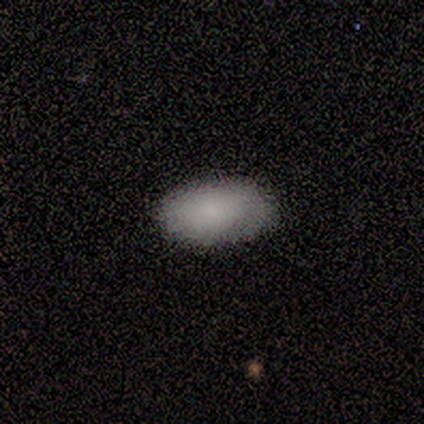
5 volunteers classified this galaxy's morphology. A smooth galaxy with no disk features (80%) that is in between round and cigar-shaped (100%).

Vote fractions:
- Smooth or featured? smooth: 80% / star or artifact: 20% / featured or disk: 0%
- How rounded? in between: 100% / round: 0% / cigar-shaped: 0%
- Merging? none: 100% / minor disturbance: 0% / major disturbance: 0% / merger: 0%